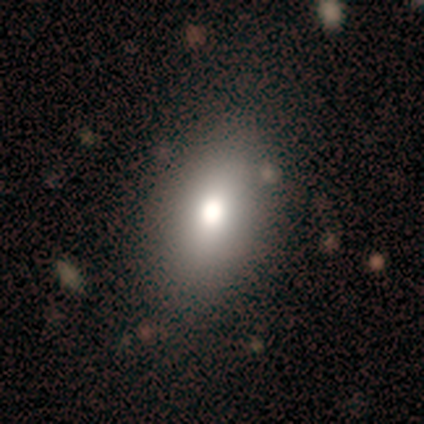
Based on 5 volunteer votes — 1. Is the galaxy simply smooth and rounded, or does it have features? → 60% smooth, 20% featured or disk, 20% star or artifact.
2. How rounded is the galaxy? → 100% in between, 0% round, 0% cigar-shaped.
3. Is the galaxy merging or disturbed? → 100% none, 0% minor disturbance, 0% major disturbance, 0% merger.